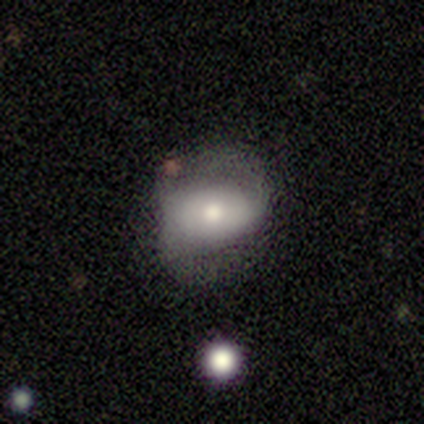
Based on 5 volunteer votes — This is clearly a featured or disk galaxy (80%). It is clearly not viewed edge-on (100%). Bar: possibly no (50%). Spiral arm pattern: clearly yes (100%). Spiral arm count: clearly 2 (100%). Spiral winding: possibly tight (50%). Central bulge: possibly moderate (50%). Merging: marginally none (40%, tied with minor disturbance).